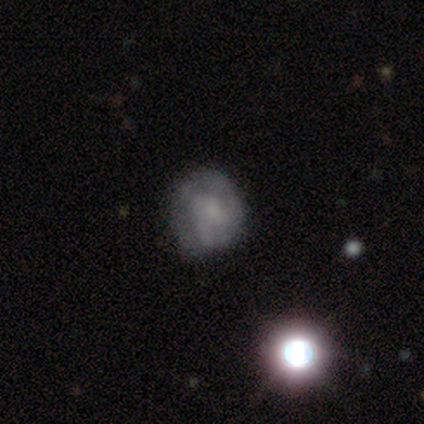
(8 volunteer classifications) Smooth or featured: smooth — 62% (featured or disk — 25%)
How rounded: round — 100%
Merging: none — 57% (minor disturbance — 43%)